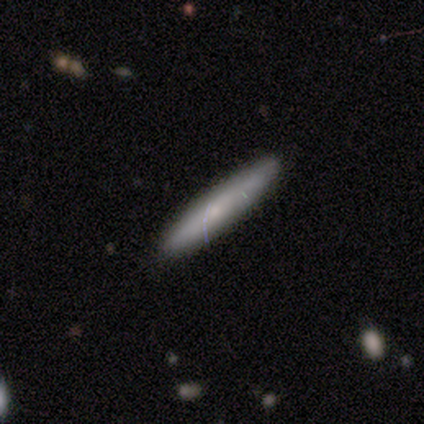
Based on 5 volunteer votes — smooth 60%, featured or disk 40%, star or artifact 0%. Down the decision tree: how rounded — cigar-shaped (67%); merging — none (100%).